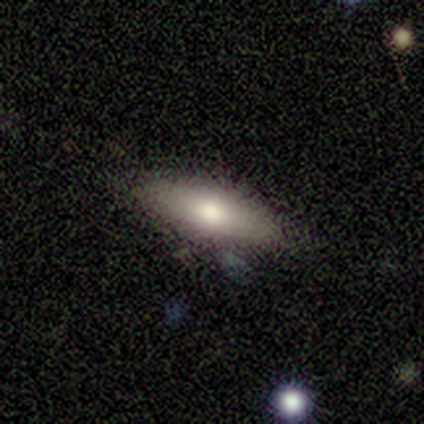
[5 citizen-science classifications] Morphology: type=smooth (80%); roundness=in between (50%, tied with cigar-shaped); merging=none (80%).